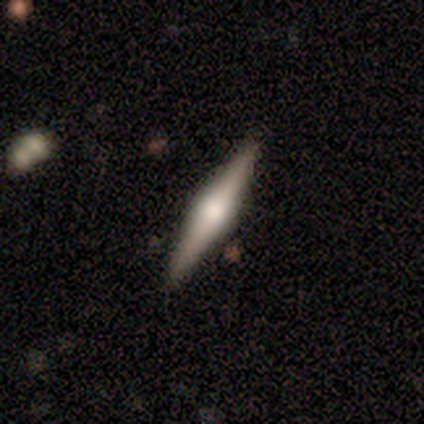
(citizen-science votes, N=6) Overall: smooth (50%, tied with featured or disk). How rounded: in between (67%; cigar-shaped 33%). Merging: none (100%).